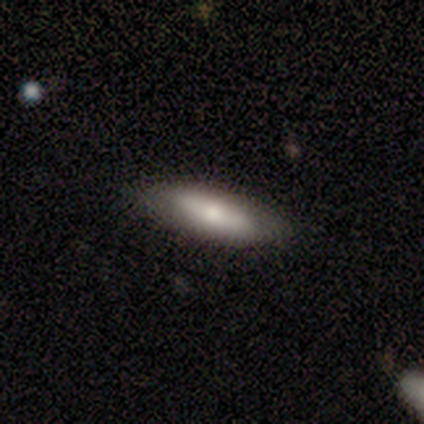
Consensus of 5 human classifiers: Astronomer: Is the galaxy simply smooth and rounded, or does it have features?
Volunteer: smooth — 60% (runner-up: featured or disk, 40%).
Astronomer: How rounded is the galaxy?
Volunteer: cigar-shaped — 100%.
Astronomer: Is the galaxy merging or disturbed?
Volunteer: none — 60% (runner-up: minor disturbance, 40%).